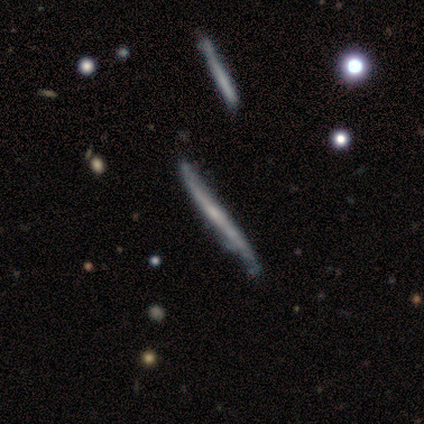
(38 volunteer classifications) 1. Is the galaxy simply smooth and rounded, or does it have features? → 79% featured or disk, 21% smooth, 0% star or artifact.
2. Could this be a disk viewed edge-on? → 97% yes, 3% no.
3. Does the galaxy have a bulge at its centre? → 62% none, 34% rounded, 3% boxy.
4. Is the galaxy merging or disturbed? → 39% none, 26% minor disturbance, 5% merger, 0% major disturbance.